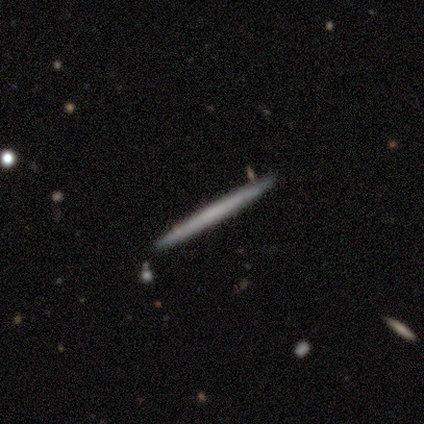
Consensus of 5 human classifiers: smooth 60%, featured or disk 40%, star or artifact 0%. Down the decision tree: how rounded — cigar-shaped (100%); merging — none (80%).